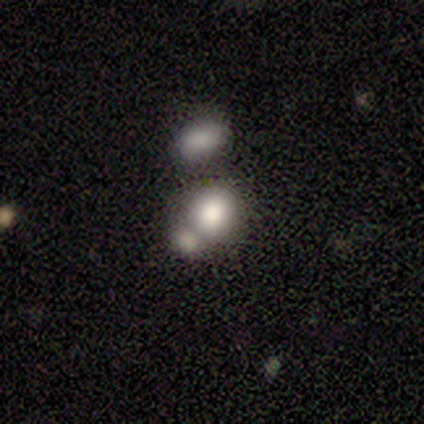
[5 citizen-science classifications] smooth 100%, featured or disk 0%, star or artifact 0%. Down the decision tree: how rounded — round (60%); merging — minor disturbance (40%, tied with merger).